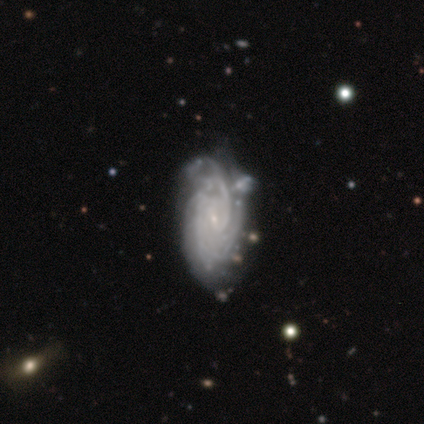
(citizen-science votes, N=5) Morphology: type=featured or disk (80%); edge-on=no (100%); bar=weak (100%); spiral arms=yes (100%); winding=tight (75%); arm count=2 (25%, tied with 3, 4 and can't tell); bulge=small (75%); merging=none (80%).